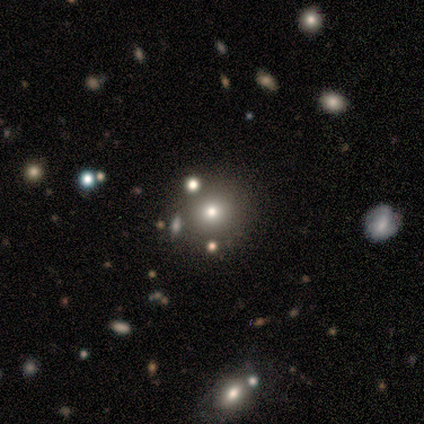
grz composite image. It shows a star or artifact, not a galaxy (60%).